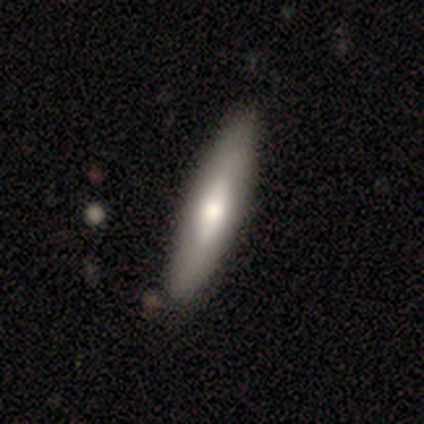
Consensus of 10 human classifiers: Overall: smooth (90%). How rounded: cigar-shaped (67%; in between 33%). Merging: none (89%).